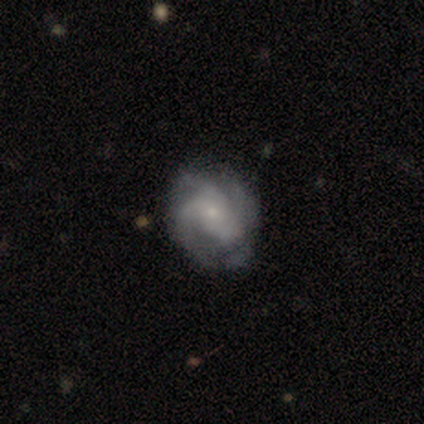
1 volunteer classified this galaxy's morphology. Smooth or featured?
  - featured or disk: 100% *
  - smooth: 0%
  - star or artifact: 0%
Edge-on disk?
  - no: 100% *
  - yes: 0%
Bar?
  - no: 100% *
  - strong: 0%
  - weak: 0%
Spiral arms?
  - yes: 100% *
  - no: 0%
Spiral winding?
  - medium: 100% *
  - tight: 0%
  - loose: 0%
Spiral arm count?
  - 4: 100% *
  - 1: 0%
  - 2: 0%
  - 3: 0%
  - more than 4: 0%
  - can't tell: 0%
Bulge size?
  - small: 100% *
  - dominant: 0%
  - large: 0%
  - moderate: 0%
  - none: 0%
Merging?
  - none: 100% *
  - minor disturbance: 0%
  - major disturbance: 0%
  - merger: 0%